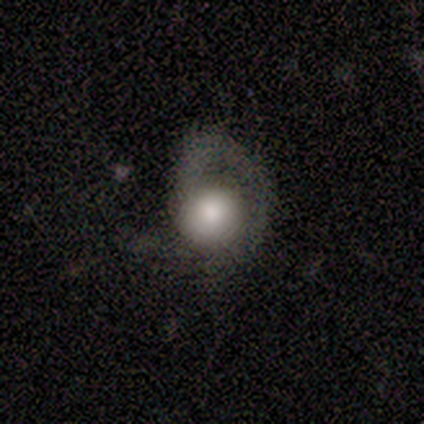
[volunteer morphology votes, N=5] A featured or disk galaxy (60%) with no bar (67%), 1 (67%) tight (33%, tied with medium and loose) spiral arms (100%) and a large central bulge (67%).

Vote fractions:
- Smooth or featured? featured or disk: 60% / smooth: 40% / star or artifact: 0%
- Edge-on disk? no: 100% / yes: 0%
- Bar? no: 67% / weak: 33% / strong: 0%
- Spiral arms? yes: 100% / no: 0%
- Spiral winding? tight: 33% (tied) / medium: 33% (tied) / loose: 33% (tied)
- Spiral arm count? 1: 67% / more than 4: 33% / 2: 0% / 3: 0% / 4: 0% / can't tell: 0%
- Bulge size? large: 67% / dominant: 33% / moderate: 0% / small: 0% / none: 0%
- Merging? major disturbance: 60% / none: 20% / minor disturbance: 20% / merger: 0%